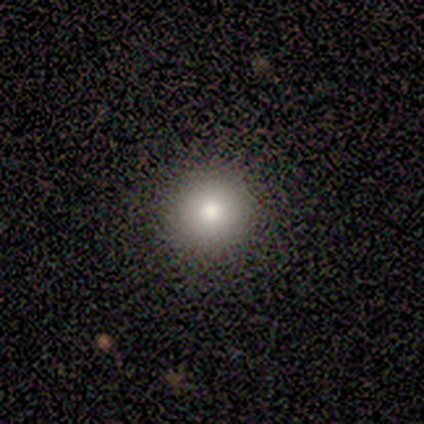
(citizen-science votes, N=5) Q: Smooth or featured?
A: smooth (80%); runner-up: star or artifact (20%)
Q: How rounded?
A: round (100%)
Q: Merging?
A: none (100%)